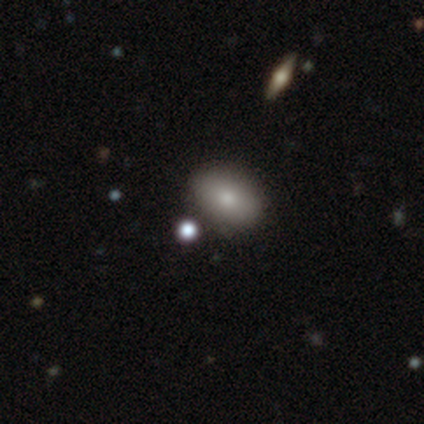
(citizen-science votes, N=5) Smooth or featured? smooth (60%)
How rounded? in between (100%)
Merging? none (60%)